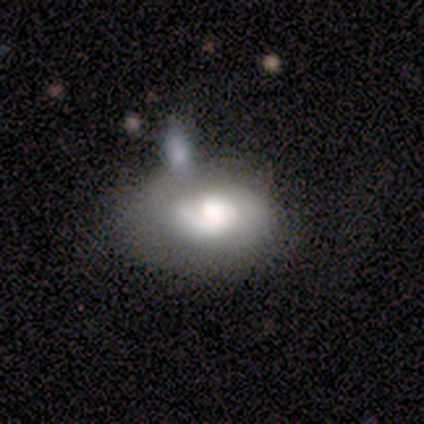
Volunteers were most divided on "merging" (2-way tie): none: 50%, merger: 50%, minor disturbance: 0%, major disturbance: 0%. More confident: bar — no (100%); spiral arms — no (100%); bulge size — large (100%); smooth or featured — featured or disk (75%); edge-on disk — no (67%).